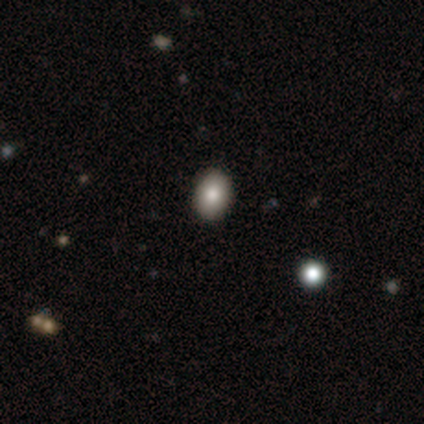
Smooth or featured: smooth — 100%
How rounded: in between — 80% (round — 20%)
Merging: minor disturbance — 60% (none — 40%)